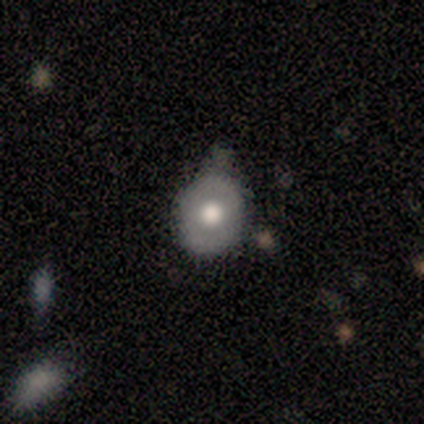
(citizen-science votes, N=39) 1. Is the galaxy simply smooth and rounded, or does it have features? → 44% smooth (tied), 44% featured or disk (tied), 13% star or artifact.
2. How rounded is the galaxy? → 76% round, 24% in between, 0% cigar-shaped.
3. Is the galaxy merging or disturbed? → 62% none, 32% minor disturbance, 6% major disturbance, 0% merger.